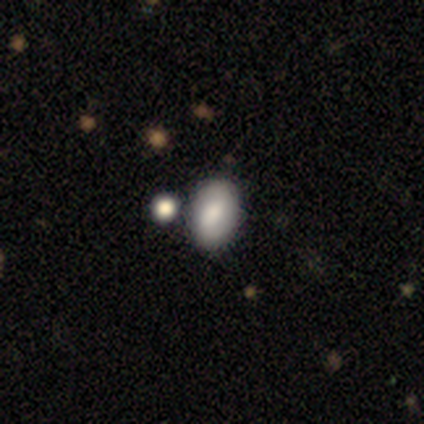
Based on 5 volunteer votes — Smooth or featured: smooth — 60% (featured or disk — 20%)
How rounded: in between — 67% (round — 33%)
Merging: none — 50% (tied with merger — 50%)